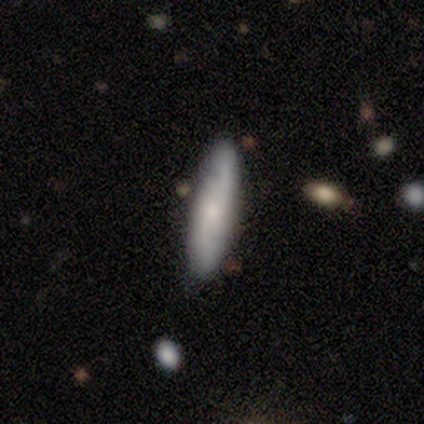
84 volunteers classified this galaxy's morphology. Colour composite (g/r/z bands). It shows a featured or disk galaxy (56%) with no bar (71%), 2 (95%) loose (48%) spiral arms (88%) and a small central bulge (62%). Merging: none (80%).